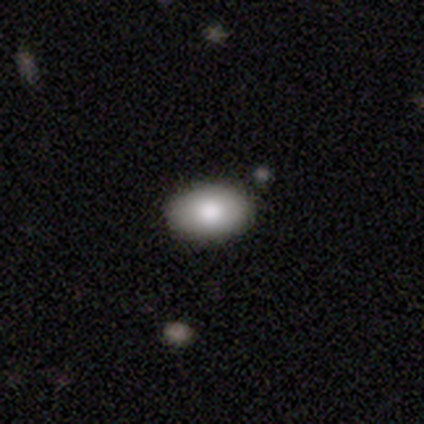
Overall: smooth (70%). How rounded: in between (100%). Merging: none (89%).